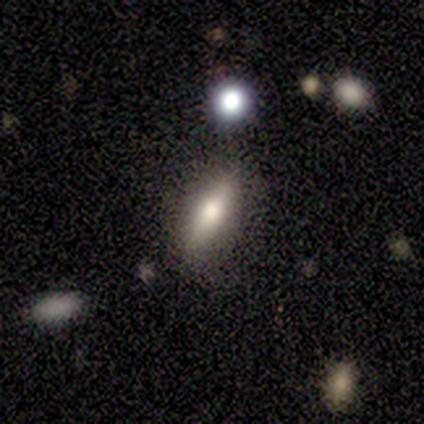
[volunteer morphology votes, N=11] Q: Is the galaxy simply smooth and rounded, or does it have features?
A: smooth — 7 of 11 (64%).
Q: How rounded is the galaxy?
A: in between — 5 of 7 (71%).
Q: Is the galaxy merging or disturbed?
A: none — 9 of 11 (82%).